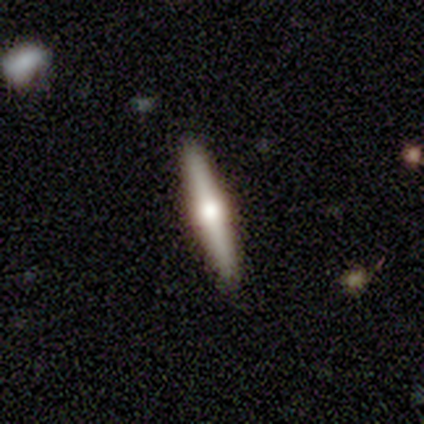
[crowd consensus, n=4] Smooth or featured: featured or disk — 75% (smooth — 25%)
Edge-on disk: yes — 100%
Edge-on bulge: rounded — 100%
Merging: none — 100%